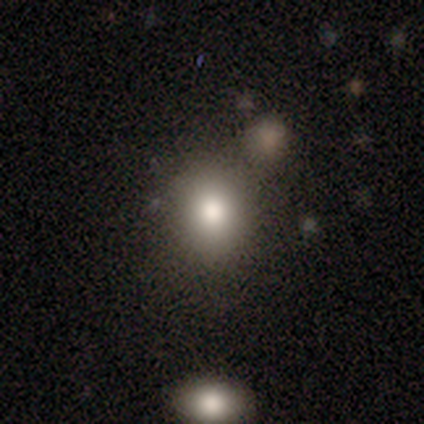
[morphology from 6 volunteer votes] Smooth or featured: smooth — 83% (star or artifact — 17%)
How rounded: round — 60% (in between — 40%)
Merging: minor disturbance — 60% (none — 20%)